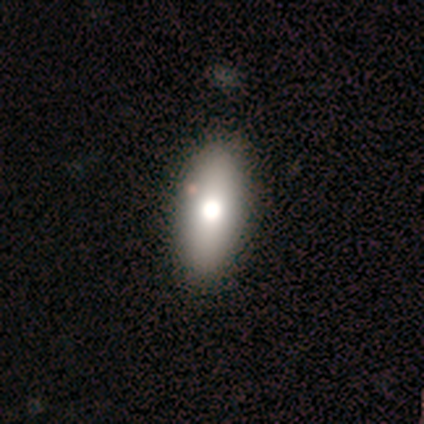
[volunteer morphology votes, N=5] smooth-or-featured: smooth: 100% | featured or disk: 0% | star or artifact: 0%
  how-rounded: in between: 80% | cigar-shaped: 20% | round: 0%
  merging: none: 100% | minor disturbance: 0% | major disturbance: 0% | merger: 0%